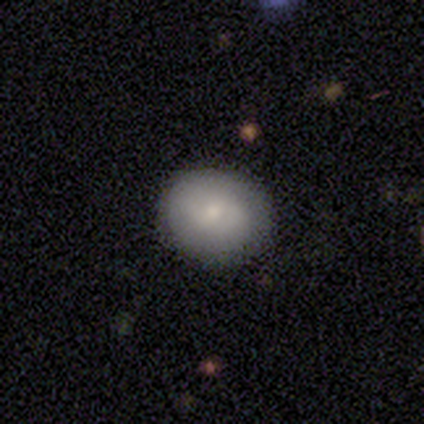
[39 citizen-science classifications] Volunteers were most divided on "how rounded": round: 69%, in between: 31%, cigar-shaped: 0%. More confident: merging — none (83%); smooth or featured — smooth (74%).